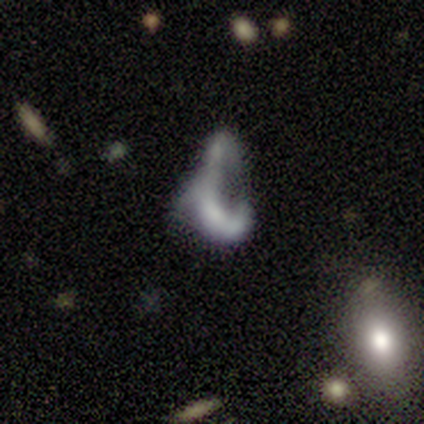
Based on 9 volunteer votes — featured or disk 44%, smooth 33%, star or artifact 22%. Down the decision tree: edge-on disk — no (75%); bar — no (67%); spiral arms — no (100%); bulge size — none (67%); merging — major disturbance (71%).